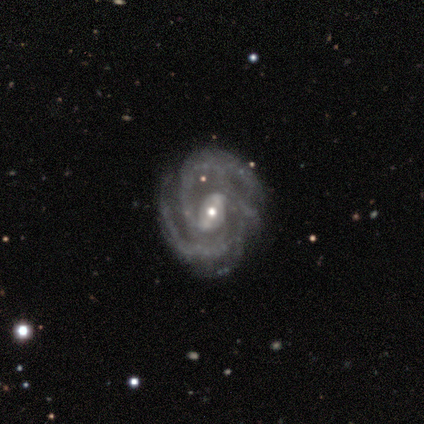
smooth_or_featured: featured or disk (p=0.88) [alt: smooth p=0.12]
disk_edge_on: no (p=1.00)
bar: weak (p=0.71) [alt: strong p=0.29]
has_spiral_arms: yes (p=1.00)
spiral_winding: medium (p=0.57) [alt: tight p=0.43]
spiral_arm_count: 2 (p=0.43) [tied with: 3 p=0.43]
bulge_size: moderate (p=0.71) [alt: small p=0.29]
merging: none (p=0.75) [alt: minor disturbance p=0.25]